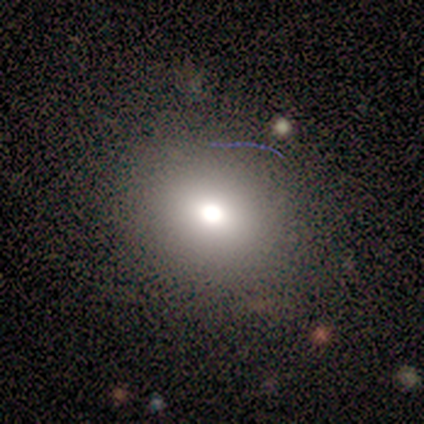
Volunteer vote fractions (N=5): Q: Smooth or featured?
A: star or artifact (60%); runner-up: smooth (40%)